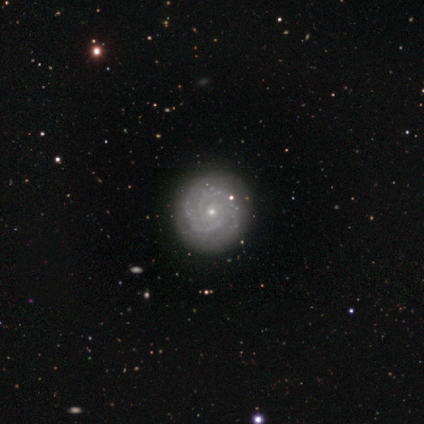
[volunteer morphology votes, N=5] smooth-or-featured: featured or disk: 80% | smooth: 20% | star or artifact: 0%
  disk-edge-on: yes: 50% (tied) | no: 50% (tied)
    edge-on-bulge: rounded: 100% | boxy: 0% | none: 0%
  merging: none: 100% | minor disturbance: 0% | major disturbance: 0% | merger: 0%